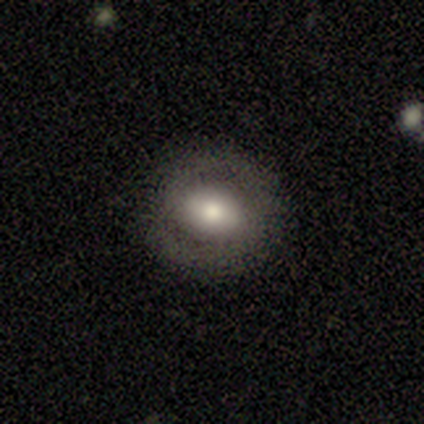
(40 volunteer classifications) Morphology: type=featured or disk (52%); edge-on=no (95%); bar=weak (45%); spiral arms=yes (55%); winding=medium (55%); arm count=2 (82%); bulge=moderate (50%); merging=none (84%).